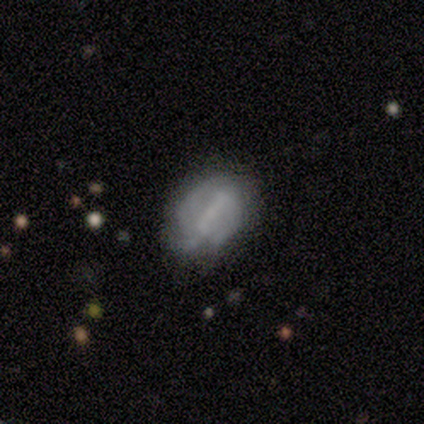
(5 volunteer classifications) Smooth or featured? featured or disk (80%)
Edge-on disk? no (100%)
Bar? strong (75%)
Spiral arms? no (100%)
Bulge size? none (50%)
Merging? none (60%)